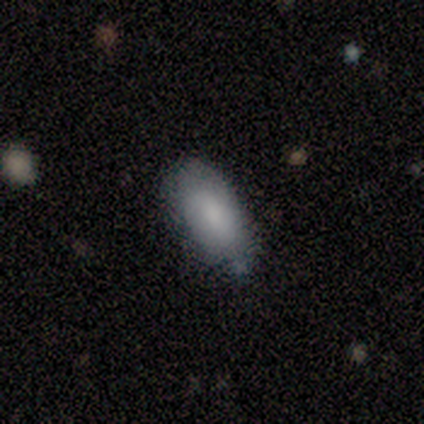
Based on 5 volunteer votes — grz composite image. It shows a smooth galaxy with no disk features (60%) that is in between round and cigar-shaped (67%). Merging: none (75%).